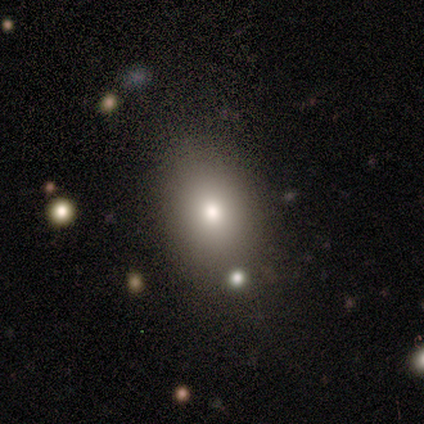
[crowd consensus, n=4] Smooth or featured? 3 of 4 (75%) said smooth. How rounded? 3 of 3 (100%) said round. Merging? 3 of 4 (75%) said none.